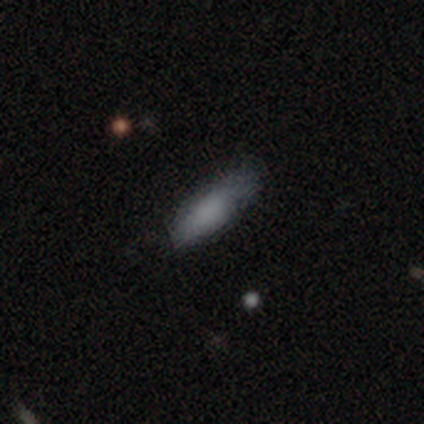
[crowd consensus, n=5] Morphology: type=smooth (100%); roundness=in between (80%); merging=none (80%).